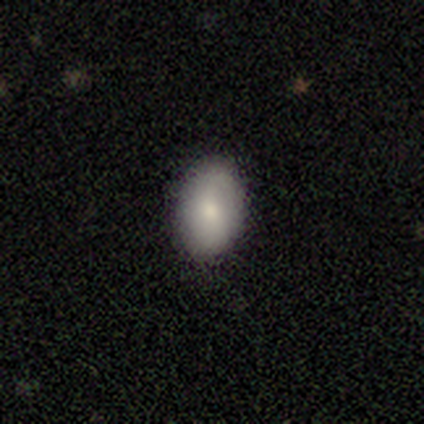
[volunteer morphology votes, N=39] This appears to be a smooth galaxy with no disk features (74%) that is in between round and cigar-shaped (86%). Merging: none (86%).